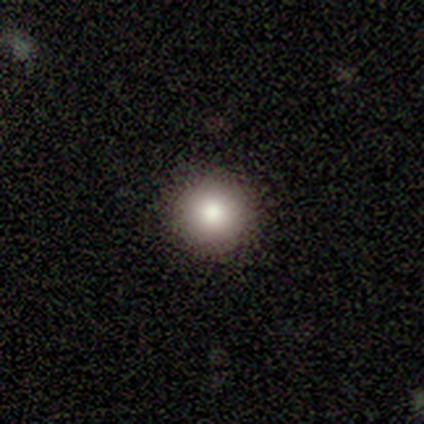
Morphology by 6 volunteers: smooth-or-featured: smooth: 100% | featured or disk: 0% | star or artifact: 0%
  how-rounded: round: 83% | in between: 17% | cigar-shaped: 0%
  merging: none: 83% | minor disturbance: 17% | major disturbance: 0% | merger: 0%